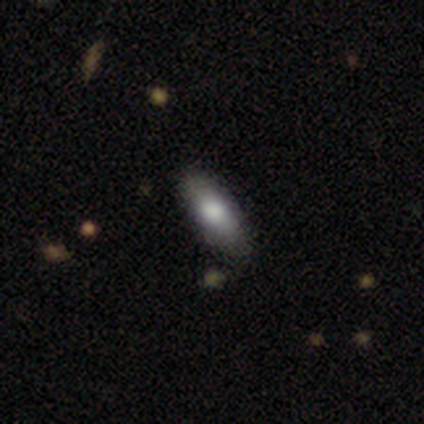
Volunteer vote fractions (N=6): This is likely a smooth galaxy (67%). How rounded: clearly in between (100%). Merging: clearly none (100%).